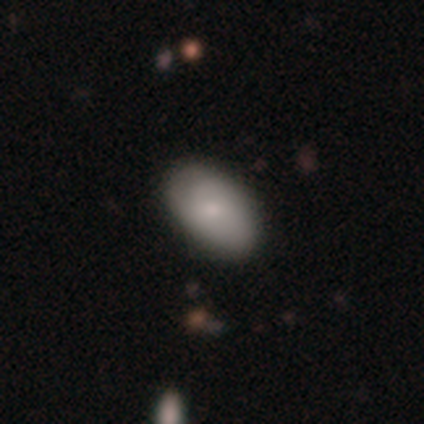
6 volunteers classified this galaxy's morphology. Overall: smooth (83%). How rounded: in between (100%). Merging: none (83%).